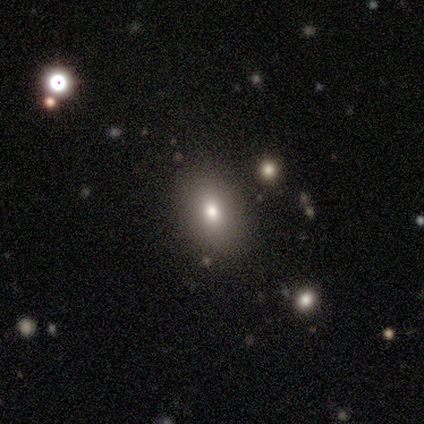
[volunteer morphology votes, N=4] smooth 100%, featured or disk 0%, star or artifact 0%. Down the decision tree: how rounded — round (75%); merging — none (100%).